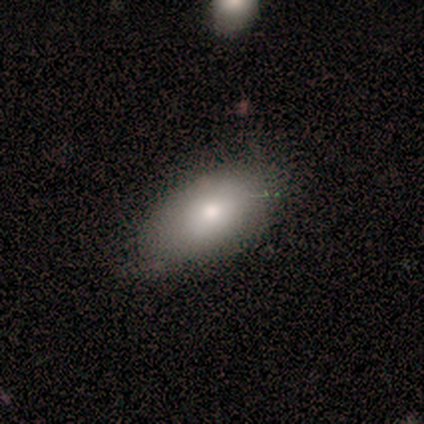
A smooth galaxy with no disk features (75%) that is in between round and cigar-shaped (100%).

Vote fractions:
- Smooth or featured? smooth: 75% / featured or disk: 25% / star or artifact: 0%
- How rounded? in between: 100% / round: 0% / cigar-shaped: 0%
- Merging? none: 100% / minor disturbance: 0% / major disturbance: 0% / merger: 0%